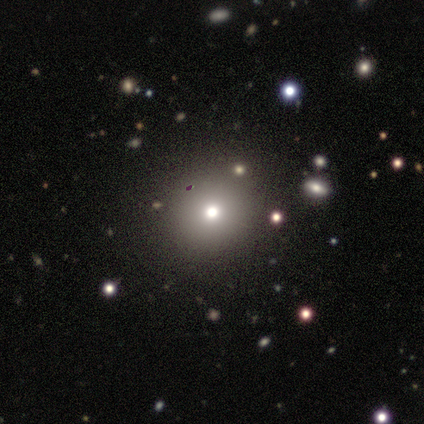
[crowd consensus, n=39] Morphology: type=smooth (74%); roundness=round (97%); merging=none (87%).